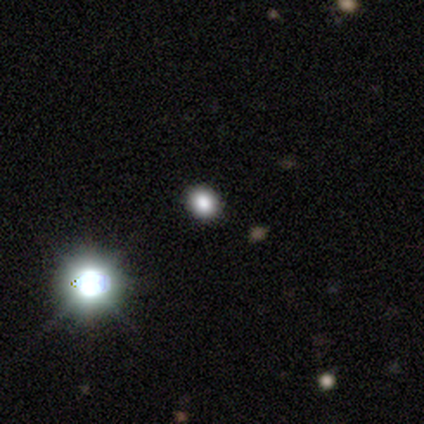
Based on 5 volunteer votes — Overall: star or artifact (60%; smooth 40%).